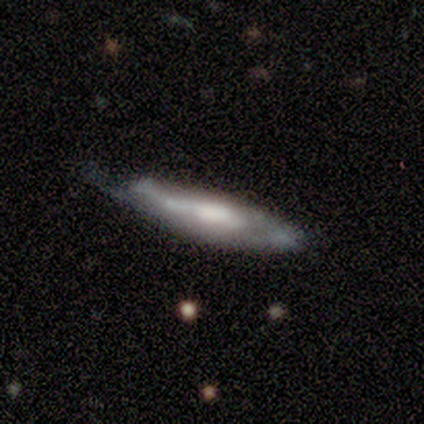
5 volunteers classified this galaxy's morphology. This is likely a featured or disk galaxy (60%). It is likely not viewed edge-on (67%). Bar: possibly strong (50%, tied with no). Spiral arm pattern: possibly yes (50%, tied with no). Spiral arm count: clearly can't tell (100%). Spiral winding: clearly tight (100%). Central bulge: possibly moderate (50%, tied with small). Merging: likely none (75%).